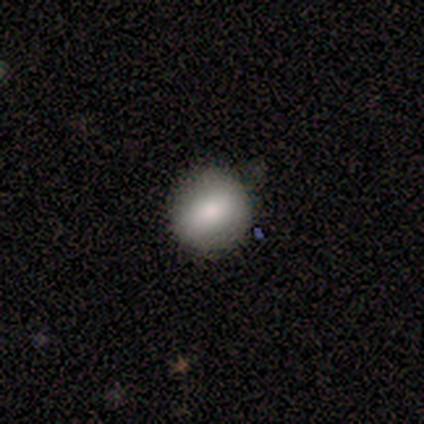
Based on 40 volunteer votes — Morphology: type=smooth (72%); roundness=round (90%); merging=none (64%).